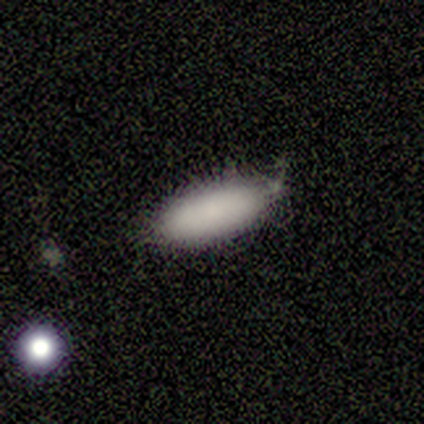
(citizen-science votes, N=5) smooth 80%, star or artifact 20%, featured or disk 0%. Down the decision tree: how rounded — in between (50%, tied with cigar-shaped); merging — none (75%).